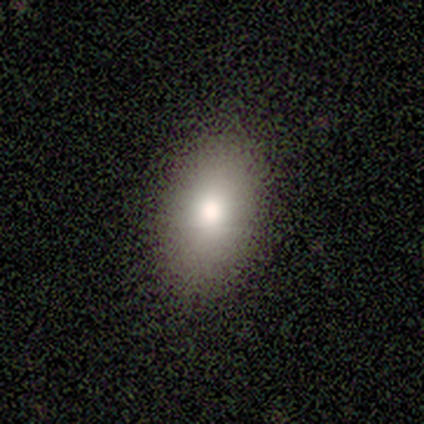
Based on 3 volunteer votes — This appears to be a smooth galaxy with no disk features (100%) that is in between round and cigar-shaped (100%). Merging: minor disturbance (67%).